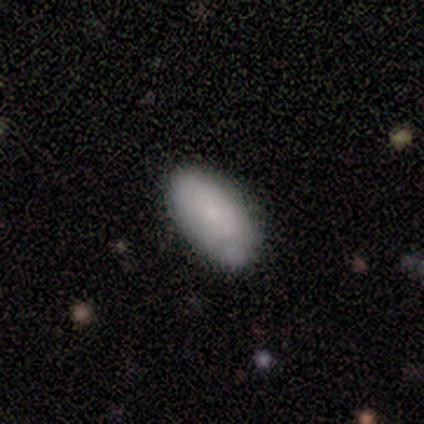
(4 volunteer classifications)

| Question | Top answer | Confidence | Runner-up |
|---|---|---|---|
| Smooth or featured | smooth | 75% | featured or disk (25%) |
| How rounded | in between | 100% | — |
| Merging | none | 100% | — |